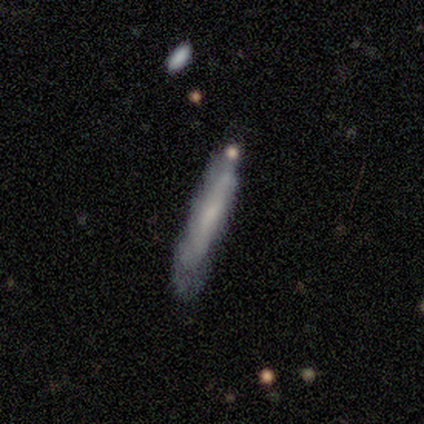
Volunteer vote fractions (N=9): Smooth or featured? featured or disk (56%)
Edge-on disk? yes (80%)
Edge-on bulge? none (75%)
Merging? minor disturbance (67%)